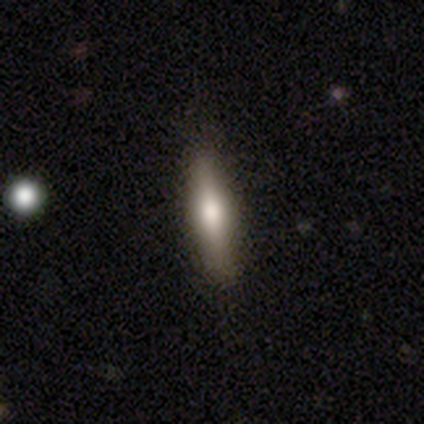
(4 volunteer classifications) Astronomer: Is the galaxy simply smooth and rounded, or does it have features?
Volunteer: smooth — 75%.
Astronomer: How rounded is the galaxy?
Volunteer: cigar-shaped — 67%.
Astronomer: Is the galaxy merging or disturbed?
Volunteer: none — 100%.